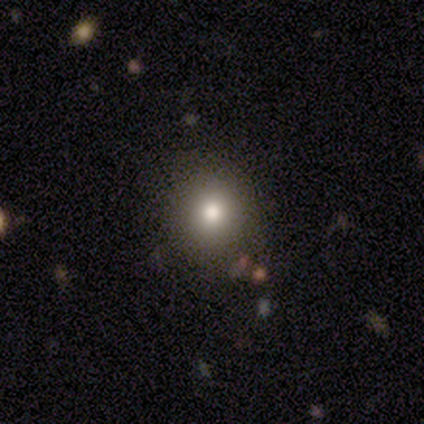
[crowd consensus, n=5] smooth_or_featured: smooth (p=0.80) [alt: featured or disk p=0.20]
how_rounded: round (p=0.75) [alt: in between p=0.25]
merging: none (p=0.60) [alt: minor disturbance p=0.40]